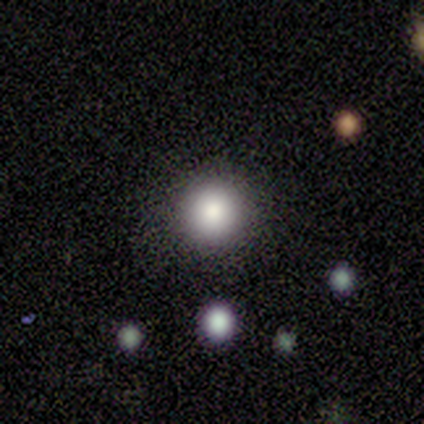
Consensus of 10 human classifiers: This is clearly a smooth galaxy (90%). How rounded: clearly round (89%). Merging: clearly none (80%).